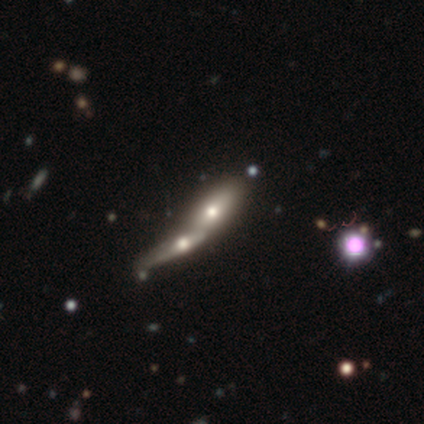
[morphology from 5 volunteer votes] A smooth galaxy with no disk features (80%) that is in between round and cigar-shaped (50%, tied with cigar-shaped).

Vote fractions:
- Smooth or featured? smooth: 80% / featured or disk: 20% / star or artifact: 0%
- How rounded? in between: 50% (tied) / cigar-shaped: 50% (tied) / round: 0%
- Merging? merger: 80% / minor disturbance: 20% / none: 0% / major disturbance: 0%